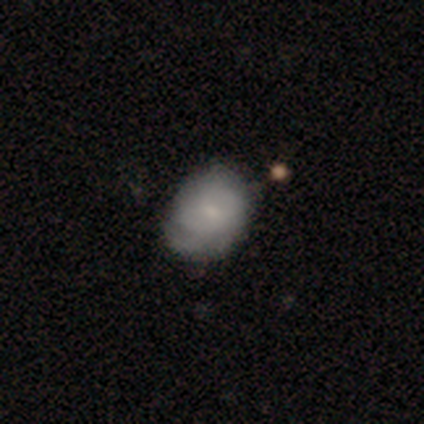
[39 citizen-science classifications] Smooth or featured? smooth (51%)
How rounded? in between (70%)
Merging? none (67%)